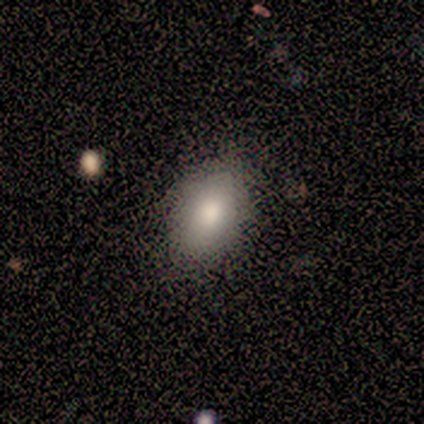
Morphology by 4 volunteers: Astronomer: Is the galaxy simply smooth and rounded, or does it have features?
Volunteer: smooth — 100%.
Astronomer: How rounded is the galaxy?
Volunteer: in between — 100%.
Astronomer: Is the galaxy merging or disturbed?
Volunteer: none — 100%.